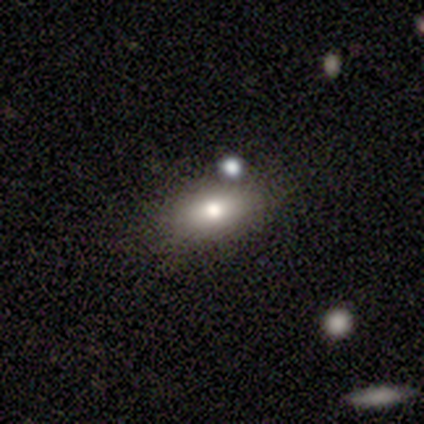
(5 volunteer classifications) A smooth galaxy with no disk features (80%) that is in between round and cigar-shaped (75%). Merging: none (60%).